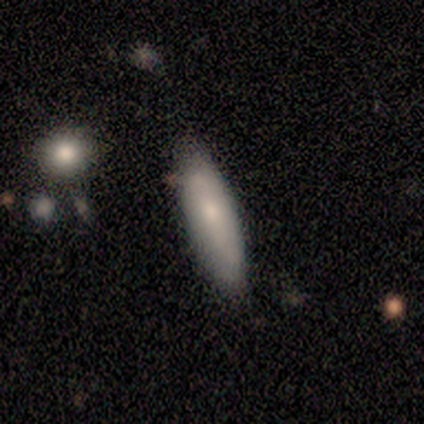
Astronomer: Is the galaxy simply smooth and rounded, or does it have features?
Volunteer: smooth — 75%.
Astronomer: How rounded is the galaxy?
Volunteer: in between — 67%.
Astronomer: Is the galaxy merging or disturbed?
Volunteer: none — 50%, tied with minor disturbance at 50%.